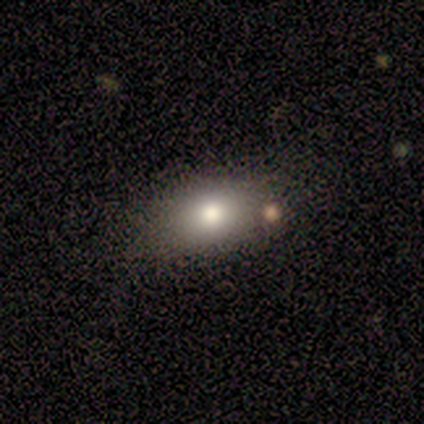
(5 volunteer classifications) A smooth galaxy with no disk features (80%) that is in between round and cigar-shaped (100%). Merging: none (60%).